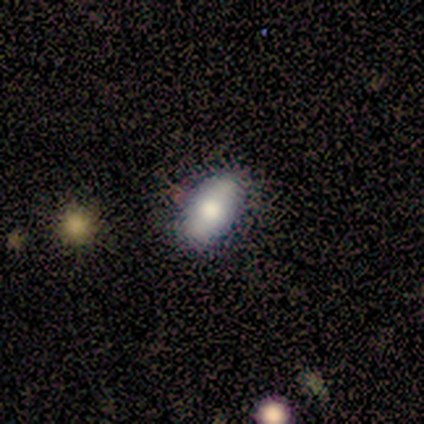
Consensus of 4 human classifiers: smooth 100%, featured or disk 0%, star or artifact 0%. Down the decision tree: how rounded — in between (100%); merging — none (100%).